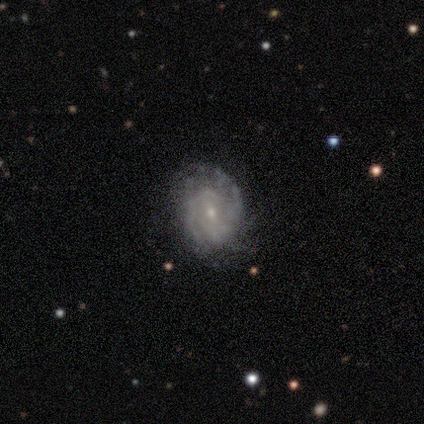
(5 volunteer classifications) Overall: featured or disk (100%). Edge-on disk: no (100%). Bar: no (80%). Spiral arms: yes (80%). Spiral arm count: 2 (50%; 4 25%). Spiral winding: tight (75%). Bulge size: small (80%). Merging: none (80%).